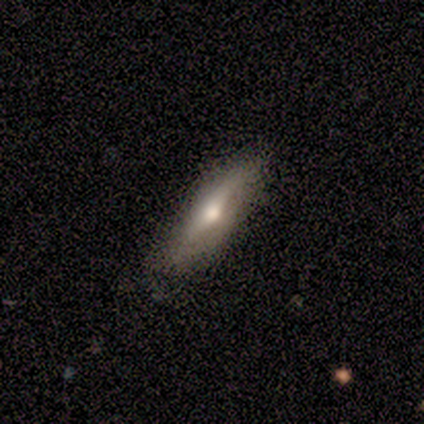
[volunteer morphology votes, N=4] This is likely a featured or disk galaxy (75%). It is clearly viewed edge-on (100%). Edge-on bulge: clearly rounded (100%). Merging: likely none (75%).